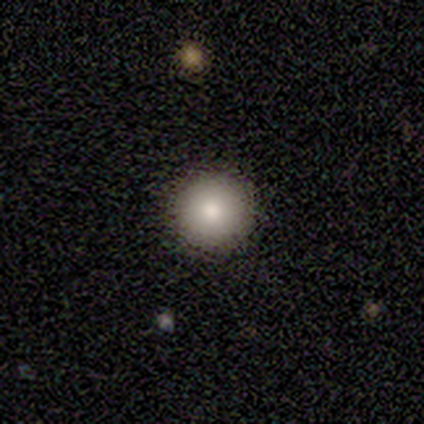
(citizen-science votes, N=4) Smooth or featured?
  - smooth: 75% *
  - featured or disk: 25%
  - star or artifact: 0%
How rounded?
  - round: 67% *
  - in between: 33%
  - cigar-shaped: 0%
Merging?
  - none: 75% *
  - major disturbance: 25%
  - minor disturbance: 0%
  - merger: 0%